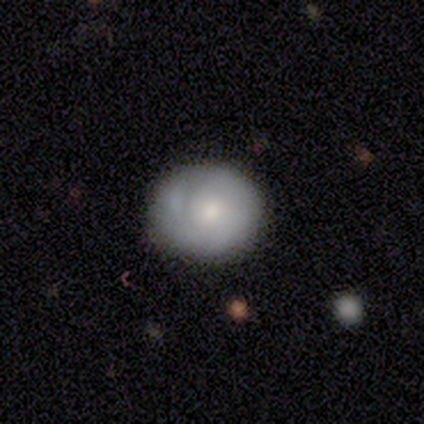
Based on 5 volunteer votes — smooth_or_featured: smooth (p=0.60) [alt: featured or disk p=0.40]
how_rounded: in between (p=0.67) [alt: round p=0.33]
merging: none (p=0.80) [alt: minor disturbance p=0.20]